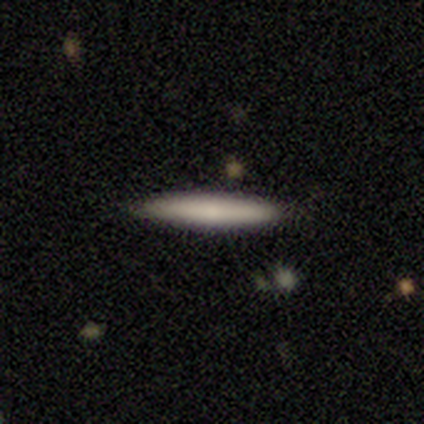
Volunteers were most divided on "smooth or featured": smooth: 59%, featured or disk: 32%, star or artifact: 10%. More confident: how rounded — cigar-shaped (96%); merging — none (92%).